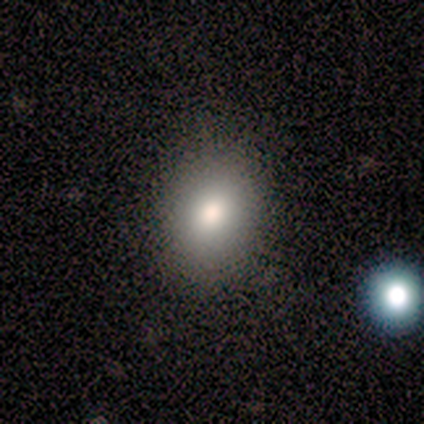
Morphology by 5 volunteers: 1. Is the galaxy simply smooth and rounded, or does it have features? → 60% smooth, 20% featured or disk, 20% star or artifact.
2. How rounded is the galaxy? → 67% in between, 33% round, 0% cigar-shaped.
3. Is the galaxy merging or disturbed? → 100% none, 0% minor disturbance, 0% major disturbance, 0% merger.